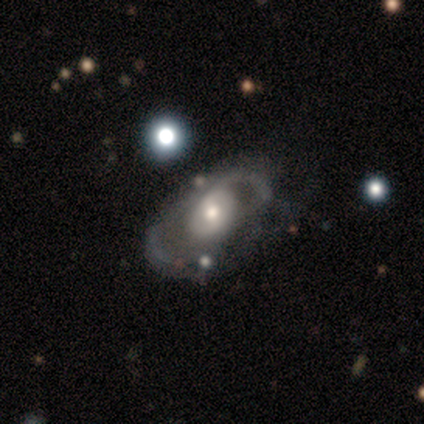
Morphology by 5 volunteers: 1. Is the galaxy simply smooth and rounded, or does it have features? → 100% featured or disk, 0% smooth, 0% star or artifact.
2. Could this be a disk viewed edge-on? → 100% no, 0% yes.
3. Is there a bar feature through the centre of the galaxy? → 60% no, 40% weak, 0% strong.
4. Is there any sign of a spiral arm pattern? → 80% no, 20% yes.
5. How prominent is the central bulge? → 80% moderate, 20% small, 0% dominant, 0% large, 0% none.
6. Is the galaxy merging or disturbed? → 80% none, 20% major disturbance, 0% minor disturbance, 0% merger.